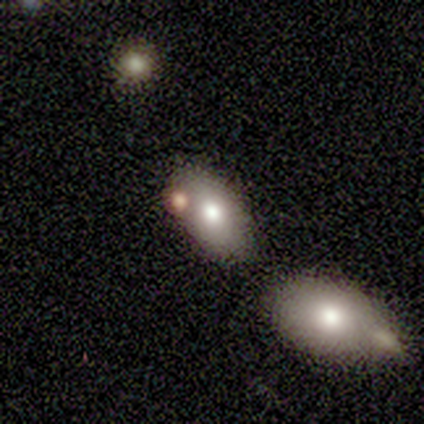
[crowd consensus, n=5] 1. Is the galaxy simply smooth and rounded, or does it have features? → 60% smooth, 40% featured or disk, 0% star or artifact.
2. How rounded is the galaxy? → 67% in between, 33% round, 0% cigar-shaped.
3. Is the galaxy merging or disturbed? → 40% none (tied), 40% merger (tied), 20% minor disturbance, 0% major disturbance.